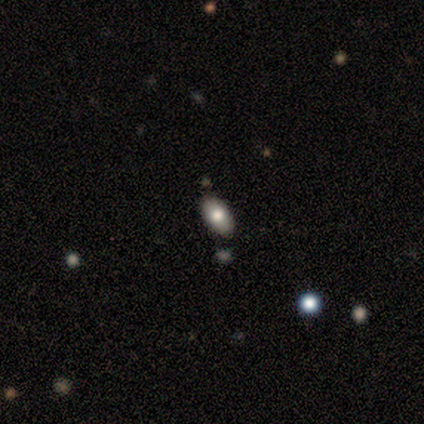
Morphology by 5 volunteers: A smooth galaxy with no disk features (60%) that is in between round and cigar-shaped (100%).

Vote fractions:
- Smooth or featured? smooth: 60% / star or artifact: 40% / featured or disk: 0%
- How rounded? in between: 100% / round: 0% / cigar-shaped: 0%
- Merging? none: 67% / minor disturbance: 33% / major disturbance: 0% / merger: 0%